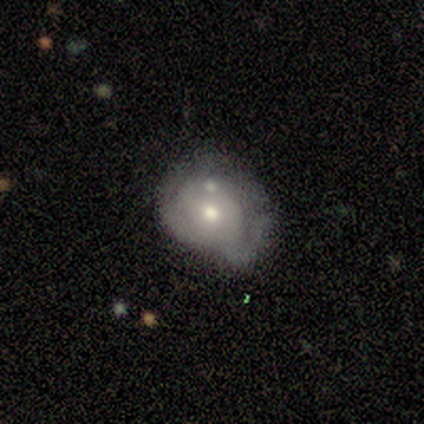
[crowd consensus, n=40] Smooth or featured? smooth (45%, tied with featured or disk)
How rounded? round (67%)
Merging? minor disturbance (44%)